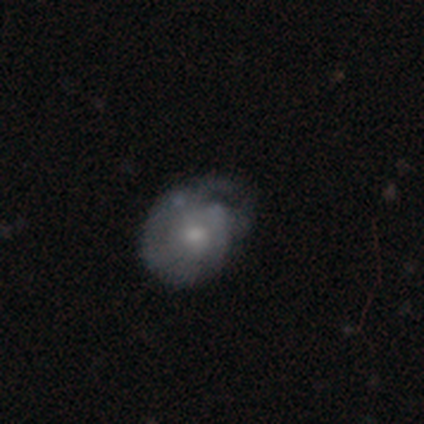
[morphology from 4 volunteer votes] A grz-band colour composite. It shows a featured or disk galaxy (75%) with no bar (100%), no spiral arms (67%) and a small central bulge (67%). Merging: none (50%).